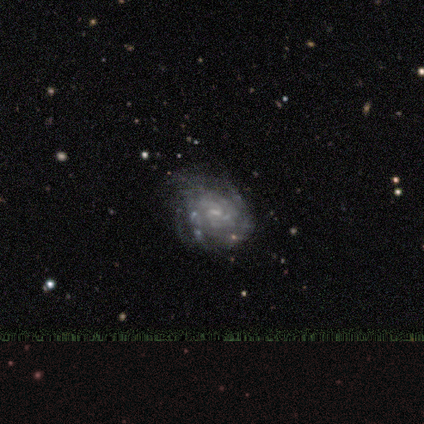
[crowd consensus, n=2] Smooth or featured? featured or disk (100%)
Edge-on disk? no (100%)
Bar? weak (100%)
Spiral arms? yes (50%, tied with no)
Spiral winding? tight (100%)
Spiral arm count? can't tell (100%)
Bulge size? small (50%, tied with none)
Merging? none (100%)